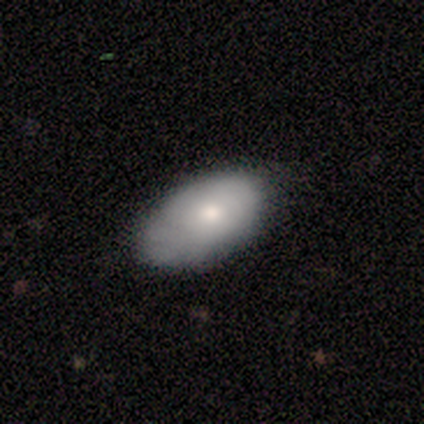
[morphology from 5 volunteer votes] smooth 60%, featured or disk 20%, star or artifact 20%. Down the decision tree: how rounded — in between (100%); merging — none (75%).